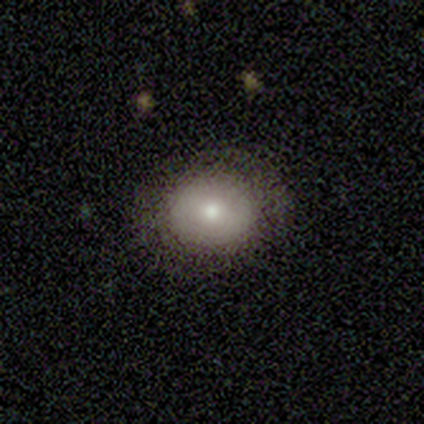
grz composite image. It shows a smooth galaxy with no disk features (80%) that is in between round and cigar-shaped (75%). Merging: none (80%).